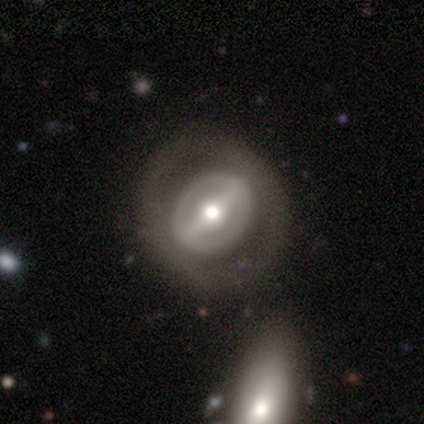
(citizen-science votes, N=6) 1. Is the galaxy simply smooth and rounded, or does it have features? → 83% featured or disk, 17% smooth, 0% star or artifact.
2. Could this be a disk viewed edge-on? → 80% no, 20% yes.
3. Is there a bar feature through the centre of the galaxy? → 50% strong (tied), 50% weak (tied), 0% no.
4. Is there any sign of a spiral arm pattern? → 75% no, 25% yes.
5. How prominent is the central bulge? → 100% moderate, 0% dominant, 0% large, 0% small, 0% none.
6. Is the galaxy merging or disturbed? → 83% none, 17% major disturbance, 0% minor disturbance, 0% merger.